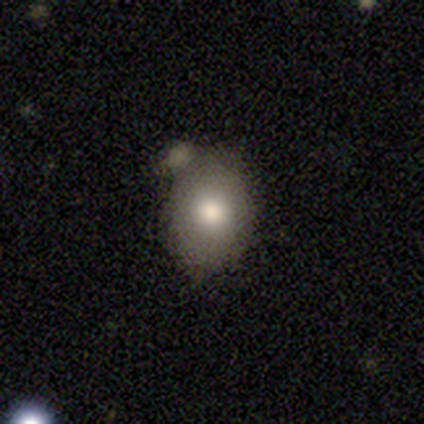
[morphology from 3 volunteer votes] A smooth galaxy with no disk features (33%, tied with featured or disk and star or artifact) that is in between round and cigar-shaped (100%). Merging: none (50%, tied with minor disturbance).